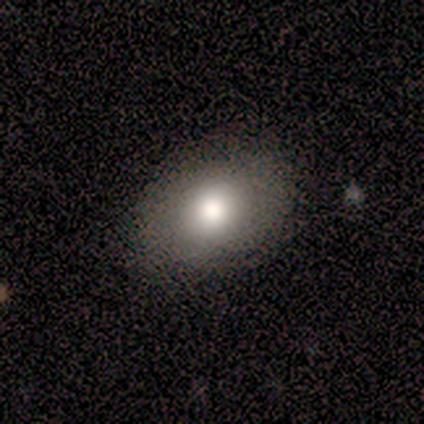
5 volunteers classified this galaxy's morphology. smooth_or_featured: smooth (p=0.80) [alt: star or artifact p=0.20]
how_rounded: in between (p=0.75) [alt: round p=0.25]
merging: none (p=0.25) [tied with: minor disturbance p=0.25, major disturbance p=0.25, merger p=0.25]